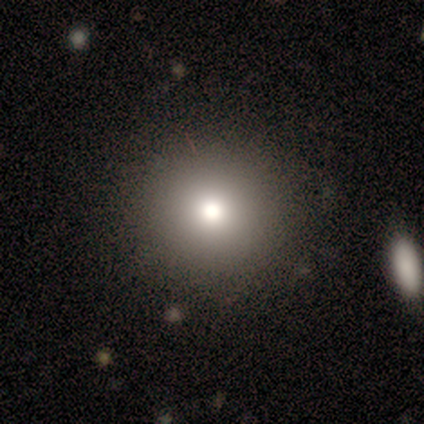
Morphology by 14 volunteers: Smooth or featured? 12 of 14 (86%) said smooth. How rounded? 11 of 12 (92%) said round. Merging? 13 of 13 (100%) said none.